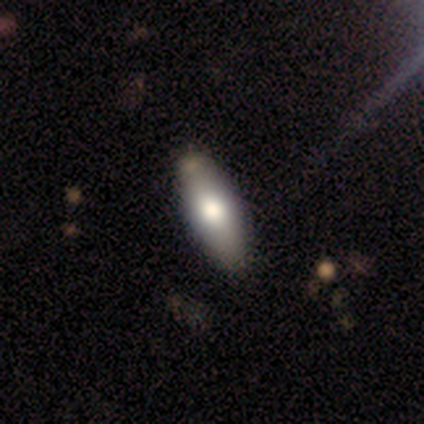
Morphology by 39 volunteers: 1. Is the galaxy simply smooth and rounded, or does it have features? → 72% smooth, 21% featured or disk, 8% star or artifact.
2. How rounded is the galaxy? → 54% cigar-shaped, 46% in between, 0% round.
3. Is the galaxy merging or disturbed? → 86% none, 14% minor disturbance, 0% major disturbance, 0% merger.